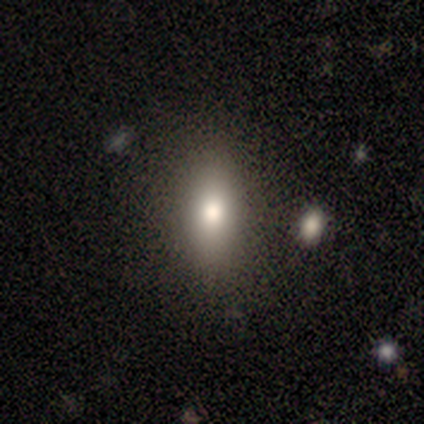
Smooth or featured? 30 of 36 (83%) said smooth. How rounded? 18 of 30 (60%) said in between. Merging? 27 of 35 (77%) said none.